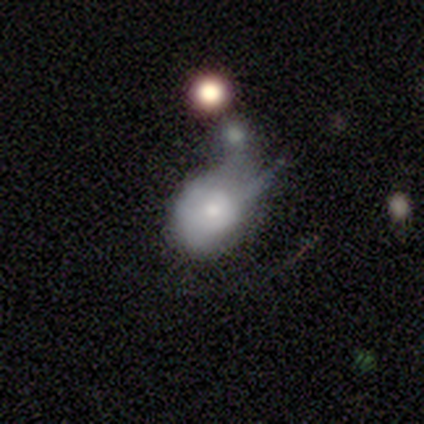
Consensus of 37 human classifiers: This appears to be a smooth galaxy with no disk features (65%) that is round (58%). Merging: minor disturbance (43%).